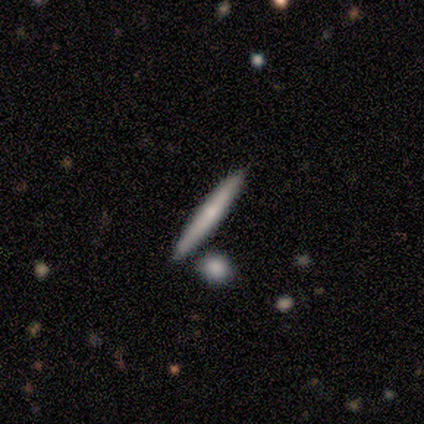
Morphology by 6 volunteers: type=smooth (83%); roundness=cigar-shaped (100%); merging=none (100%).